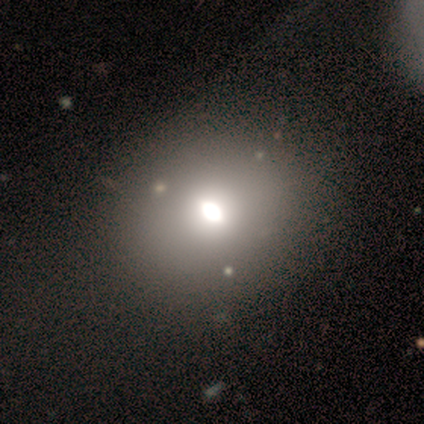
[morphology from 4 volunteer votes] type=smooth (100%); roundness=round (50%, tied with in between); merging=none (75%).